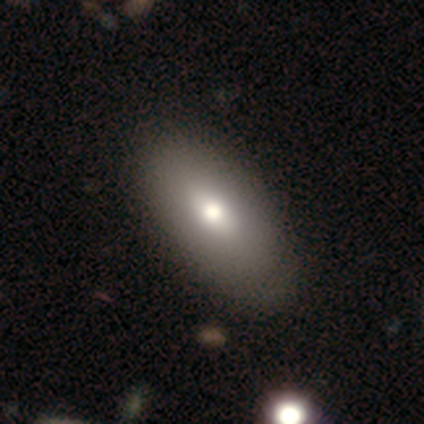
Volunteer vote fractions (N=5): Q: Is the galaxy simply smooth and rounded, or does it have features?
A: smooth — 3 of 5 (60%).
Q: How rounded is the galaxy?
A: in between — 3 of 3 (100%).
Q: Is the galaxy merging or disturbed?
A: none — 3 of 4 (75%).